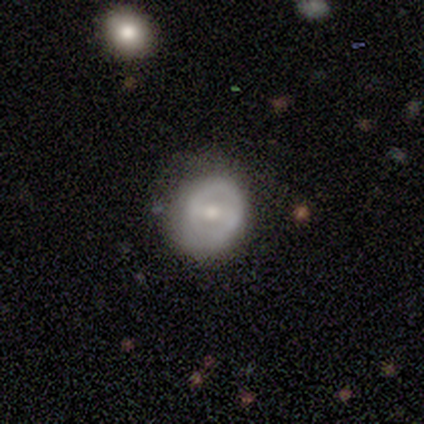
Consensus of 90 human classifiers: Overall: featured or disk (57%; smooth 34%). Edge-on disk: no (100%). Bar: weak (45%; no 29%). Spiral arms: no (51%; yes 49%). Bulge size: moderate (61%; small 31%). Merging: none (67%).